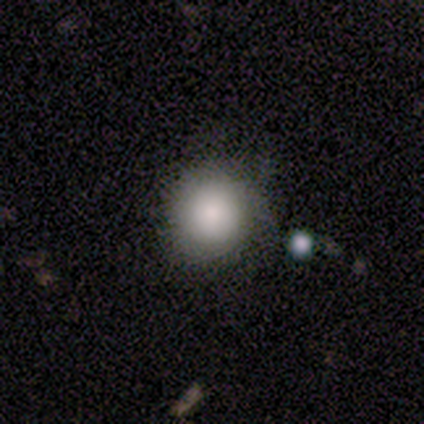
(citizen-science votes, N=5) smooth_or_featured: smooth (p=0.80) [alt: featured or disk p=0.20]
how_rounded: round (p=0.50) [tied with: in between p=0.50]
merging: none (p=1.00)